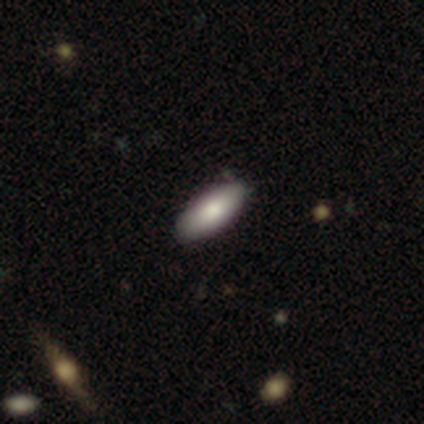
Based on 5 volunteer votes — Overall: smooth (80%). How rounded: in between (100%). Merging: none (100%).